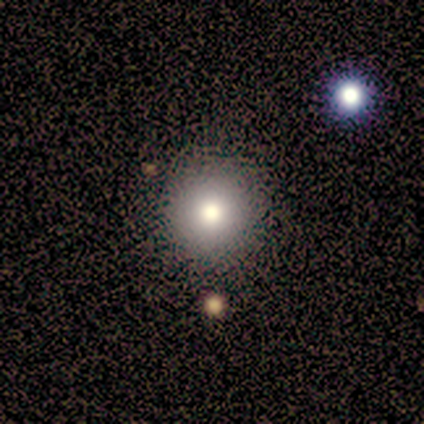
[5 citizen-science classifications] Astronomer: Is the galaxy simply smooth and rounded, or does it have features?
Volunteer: smooth — 40%, tied with star or artifact at 40%.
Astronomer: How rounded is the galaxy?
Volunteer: round — 100%.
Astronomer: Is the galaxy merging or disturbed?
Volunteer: none — 100%.